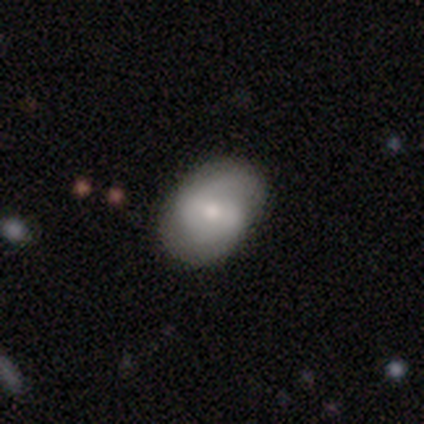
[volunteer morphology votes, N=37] type=smooth (46%, tied with featured or disk); roundness=in between (76%); merging=none (71%).